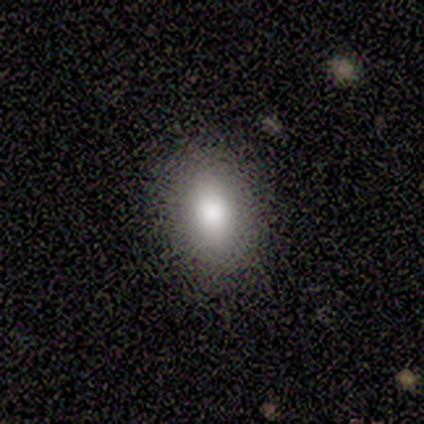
This appears to be a smooth galaxy with no disk features (100%) that is in between round and cigar-shaped (60%). Merging: none (100%).